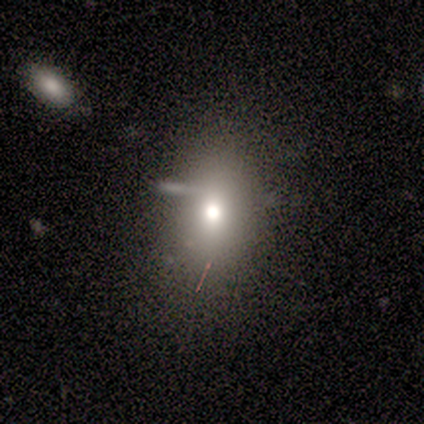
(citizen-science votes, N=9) Morphology: type=smooth (56%); roundness=in between (60%); merging=none (57%).